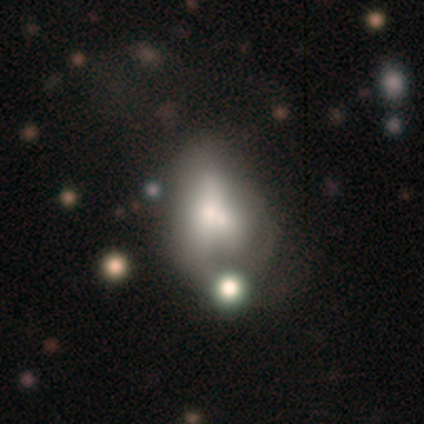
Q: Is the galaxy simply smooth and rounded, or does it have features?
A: smooth — 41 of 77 (53%).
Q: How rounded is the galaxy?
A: in between — 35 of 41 (85%).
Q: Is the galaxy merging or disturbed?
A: merger — 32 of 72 (44%).